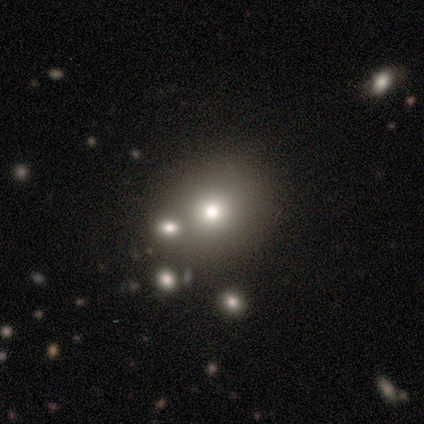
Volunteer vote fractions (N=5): smooth-or-featured: featured or disk: 60% | smooth: 40% | star or artifact: 0%
  disk-edge-on: no: 100% | yes: 0%
    bar: no: 100% | strong: 0% | weak: 0%
    has-spiral-arms: no: 100% | yes: 0%
    bulge-size: small: 67% | moderate: 33% | dominant: 0% | large: 0% | none: 0%
  merging: minor disturbance: 40% | none: 20% | major disturbance: 20% | merger: 20%